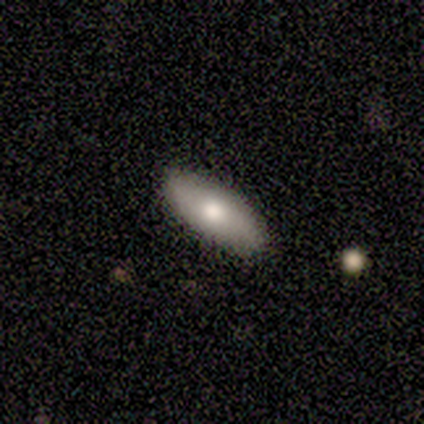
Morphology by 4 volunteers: Smooth or featured?
  - smooth: 50% * (tied)
  - star or artifact: 50% * (tied)
  - featured or disk: 0%
How rounded?
  - cigar-shaped: 100% *
  - round: 0%
  - in between: 0%
Merging?
  - none: 50% * (tied)
  - minor disturbance: 50% * (tied)
  - major disturbance: 0%
  - merger: 0%